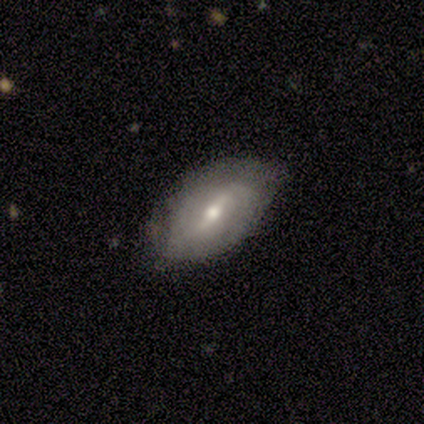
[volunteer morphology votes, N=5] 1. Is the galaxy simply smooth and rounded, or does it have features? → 60% featured or disk, 20% smooth, 20% star or artifact.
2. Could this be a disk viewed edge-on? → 100% no, 0% yes.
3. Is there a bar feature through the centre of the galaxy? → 33% strong (tied), 33% weak (tied), 33% no (tied).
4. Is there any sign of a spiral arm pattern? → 67% yes, 33% no.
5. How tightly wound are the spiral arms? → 100% loose, 0% tight, 0% medium.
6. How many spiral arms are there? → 100% 2, 0% 1, 0% 3, 0% 4, 0% more than 4, 0% can't tell.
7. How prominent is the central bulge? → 67% moderate, 33% small, 0% dominant, 0% large, 0% none.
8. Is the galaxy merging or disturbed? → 50% none (tied), 50% minor disturbance (tied), 0% major disturbance, 0% merger.